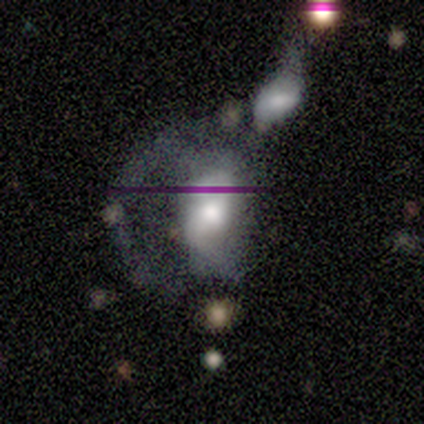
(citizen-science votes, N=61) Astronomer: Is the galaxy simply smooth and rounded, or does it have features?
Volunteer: featured or disk — 66%.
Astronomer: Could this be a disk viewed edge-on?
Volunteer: no — 98%.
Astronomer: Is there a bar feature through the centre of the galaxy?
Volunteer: no — 69%.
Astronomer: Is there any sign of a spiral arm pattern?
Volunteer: yes — 59% (runner-up: no, 41%).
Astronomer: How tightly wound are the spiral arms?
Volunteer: medium — 57% (runner-up: loose, 43%).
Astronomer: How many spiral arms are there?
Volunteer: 1 — 48% (runner-up: 2, 30%).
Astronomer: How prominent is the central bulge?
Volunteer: moderate — 41% (runner-up: large, 38%).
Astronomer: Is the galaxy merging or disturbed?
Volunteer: major disturbance — 46% (runner-up: merger, 36%).